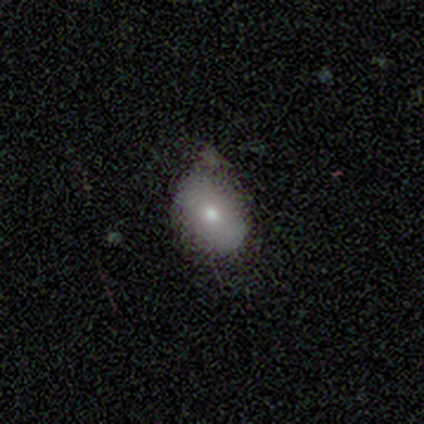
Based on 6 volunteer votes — Q: Smooth or featured?
A: smooth (83%); runner-up: featured or disk (17%)
Q: How rounded?
A: round (60%); runner-up: in between (40%)
Q: Merging?
A: minor disturbance (67%); runner-up: none (33%)